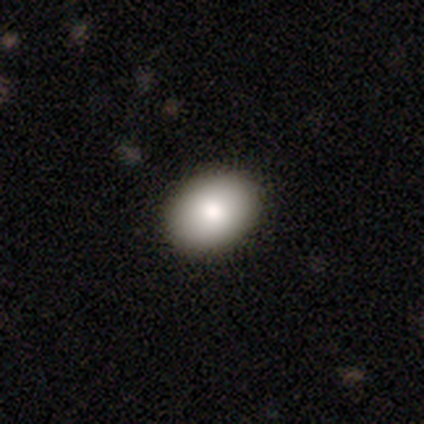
smooth 85%, featured or disk 8%, star or artifact 8%. Down the decision tree: how rounded — in between (70%); merging — none (93%).